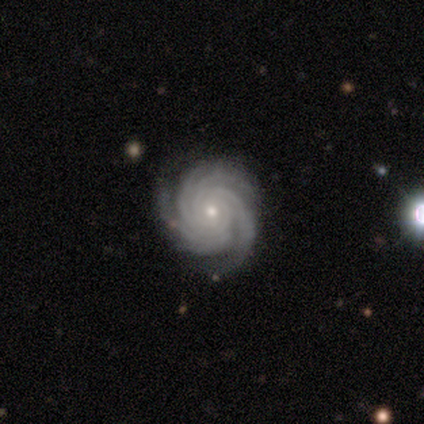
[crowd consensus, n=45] Smooth or featured?
  - featured or disk: 93% *
  - star or artifact: 7%
  - smooth: 0%
Edge-on disk?
  - no: 93% *
  - yes: 7%
Bar?
  - no: 67% *
  - weak: 26%
  - strong: 8%
Spiral arms?
  - yes: 100% *
  - no: 0%
Spiral winding?
  - tight: 95% *
  - medium: 3%
  - loose: 3%
Spiral arm count?
  - more than 4: 46% *
  - 4: 36%
  - 3: 8%
  - 2: 5%
  - can't tell: 5%
  - 1: 0%
Bulge size?
  - small: 64% *
  - moderate: 36%
  - dominant: 0%
  - large: 0%
  - none: 0%
Merging?
  - none: 74% *
  - minor disturbance: 19%
  - major disturbance: 7%
  - merger: 0%